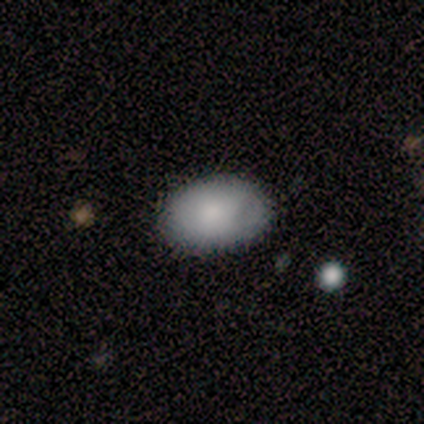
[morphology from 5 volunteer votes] Smooth or featured: smooth — 100%
How rounded: in between — 100%
Merging: none — 100%